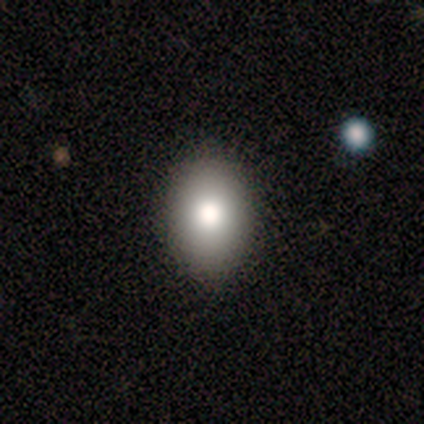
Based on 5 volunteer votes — Smooth or featured? 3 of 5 (60%) said smooth. How rounded? 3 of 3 (100%) said in between. Merging? 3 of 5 (60%) said none.